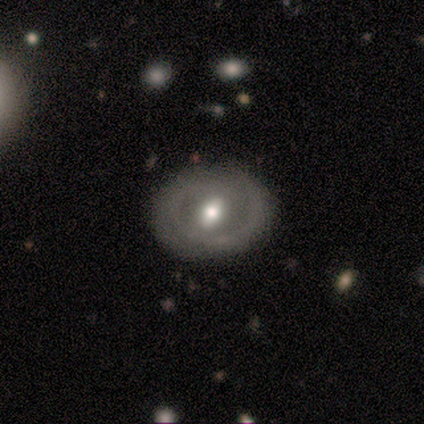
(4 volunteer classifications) Overall: featured or disk (100%). Edge-on disk: no (75%). Bar: weak (67%; no 33%). Spiral arms: no (100%). Bulge size: moderate (67%; small 33%). Merging: none (100%).